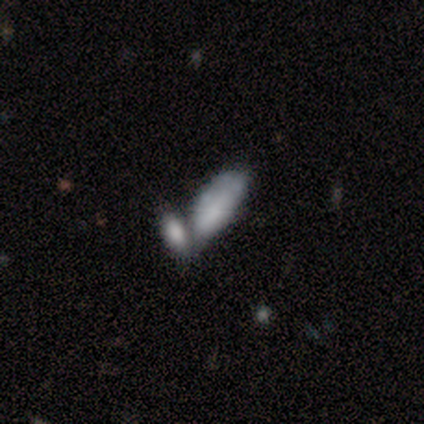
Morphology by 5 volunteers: Smooth or featured? smooth (60%)
How rounded? in between (67%)
Merging? merger (80%)